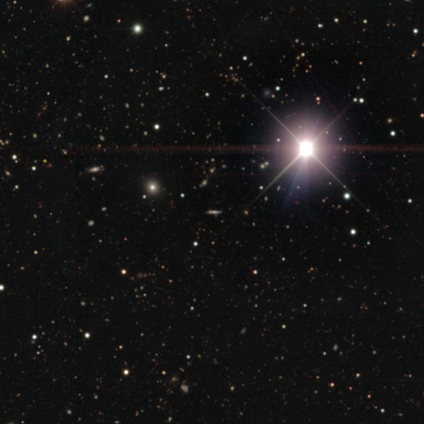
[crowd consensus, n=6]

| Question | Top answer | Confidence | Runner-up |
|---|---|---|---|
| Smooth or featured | star or artifact | 83% | smooth (17%) |